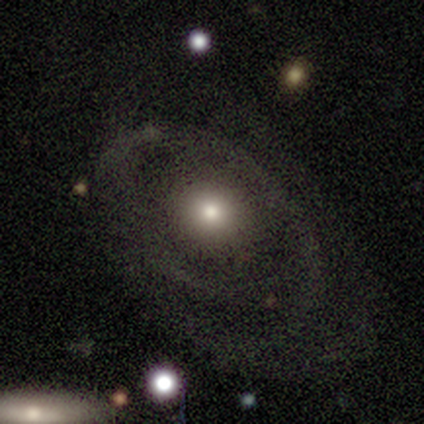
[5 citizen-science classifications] smooth_or_featured: featured or disk (p=0.60) [alt: smooth p=0.40]
disk_edge_on: no (p=1.00)
bar: no (p=1.00)
has_spiral_arms: yes (p=0.67) [alt: no p=0.33]
spiral_winding: tight (p=0.50) [tied with: medium p=0.50]
spiral_arm_count: 2 (p=0.50) [tied with: 3 p=0.50]
bulge_size: large (p=0.33) [tied with: moderate p=0.33, small p=0.33]
merging: none (p=0.80) [alt: minor disturbance p=0.20]